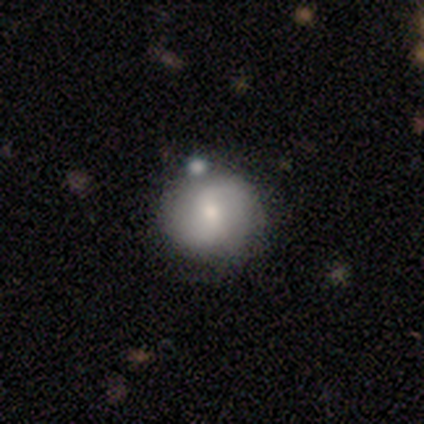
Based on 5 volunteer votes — Morphology: type=smooth (100%); roundness=round (100%); merging=none (80%).